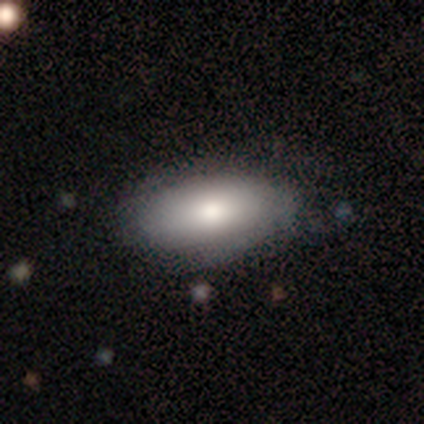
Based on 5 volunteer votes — Smooth or featured? 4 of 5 (80%) said smooth. How rounded? 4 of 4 (100%) said in between. Merging? 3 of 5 (60%) said none.